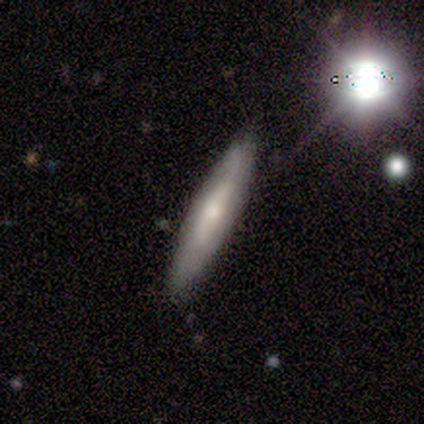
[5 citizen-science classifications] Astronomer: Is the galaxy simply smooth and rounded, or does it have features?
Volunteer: smooth — 40%, tied with featured or disk at 40%.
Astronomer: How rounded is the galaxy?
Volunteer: cigar-shaped — 100%.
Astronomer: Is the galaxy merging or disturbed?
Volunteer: none — 100%.